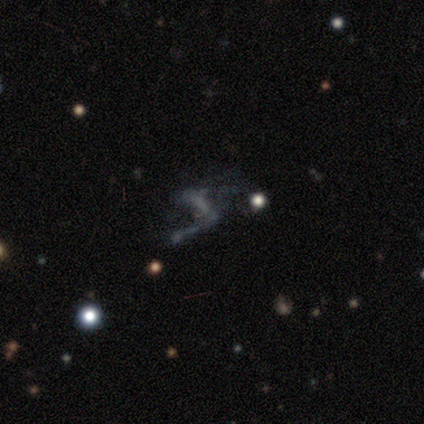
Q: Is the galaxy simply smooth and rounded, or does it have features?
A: featured or disk — 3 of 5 (60%).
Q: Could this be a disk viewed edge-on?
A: no — 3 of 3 (100%).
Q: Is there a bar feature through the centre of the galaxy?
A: strong — 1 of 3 (33%, tied with weak and no).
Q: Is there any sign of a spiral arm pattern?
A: no — 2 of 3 (67%).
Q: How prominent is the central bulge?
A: none — 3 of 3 (100%).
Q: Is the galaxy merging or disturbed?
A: none — 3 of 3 (100%).